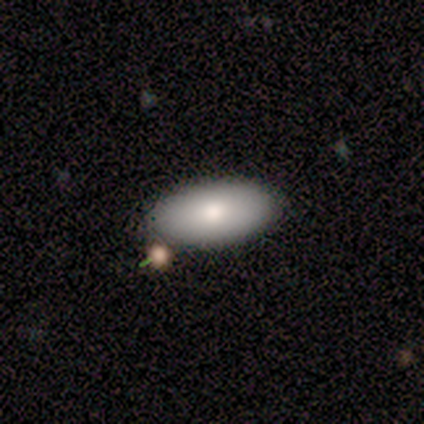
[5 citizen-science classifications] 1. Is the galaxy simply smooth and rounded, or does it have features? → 100% smooth, 0% featured or disk, 0% star or artifact.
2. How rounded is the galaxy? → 100% in between, 0% round, 0% cigar-shaped.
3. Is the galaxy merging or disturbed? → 60% none, 40% minor disturbance, 0% major disturbance, 0% merger.